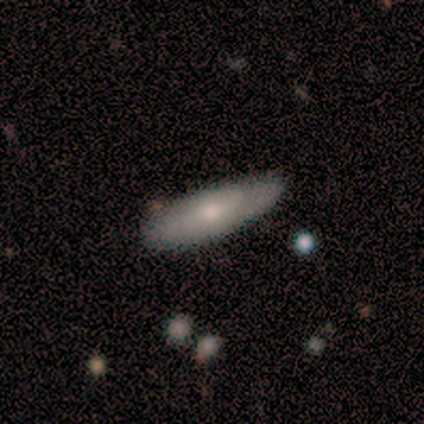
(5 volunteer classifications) Morphology: type=featured or disk (60%); edge-on=no (67%); bar=no (100%); spiral arms=yes (50%, tied with no); winding=medium (100%); arm count=can't tell (100%); bulge=moderate (50%, tied with small); merging=none (80%).